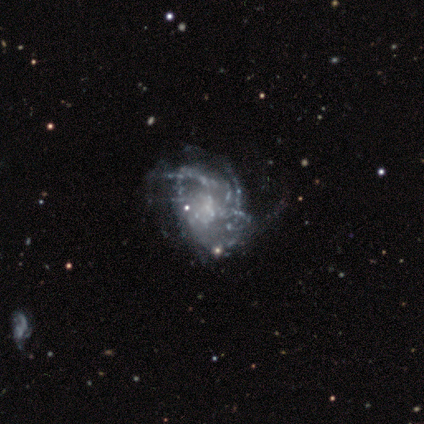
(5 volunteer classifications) Q: Smooth or featured?
A: featured or disk (100%)
Q: Edge-on disk?
A: no (100%)
Q: Bar?
A: no (80%); runner-up: weak (20%)
Q: Spiral arms?
A: no (60%); runner-up: yes (40%)
Q: Bulge size?
A: none (60%); runner-up: moderate (20%)
Q: Merging?
A: major disturbance (60%); runner-up: minor disturbance (20%)